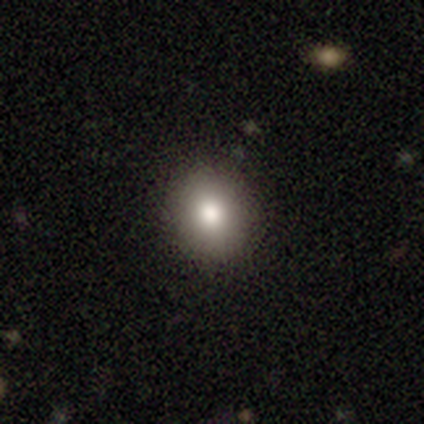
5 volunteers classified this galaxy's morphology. Smooth or featured: smooth — 60% (featured or disk — 20%)
How rounded: round — 100%
Merging: none — 75% (minor disturbance — 25%)